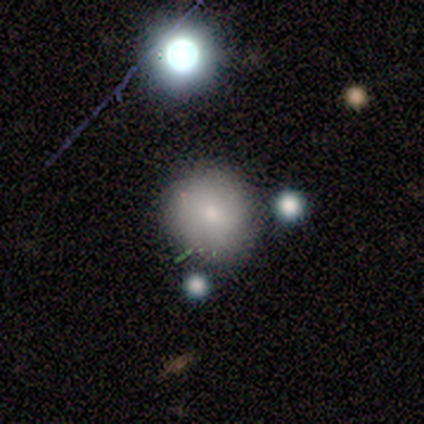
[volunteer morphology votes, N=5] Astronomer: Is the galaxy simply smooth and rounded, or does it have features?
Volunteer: smooth — 60% (runner-up: star or artifact, 40%).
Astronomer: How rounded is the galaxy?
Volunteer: round — 100%.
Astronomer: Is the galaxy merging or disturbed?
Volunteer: none — 67%.